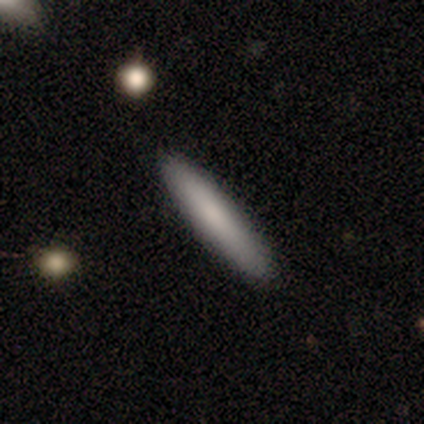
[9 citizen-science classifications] This appears to be a smooth galaxy with no disk features (100%) that is cigar-shaped (89%). Merging: none (78%).